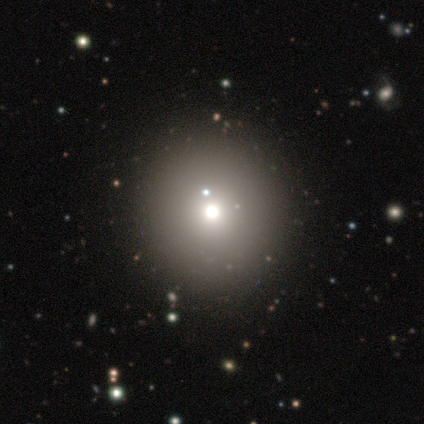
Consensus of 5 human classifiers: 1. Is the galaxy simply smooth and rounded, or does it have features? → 80% smooth, 20% star or artifact, 0% featured or disk.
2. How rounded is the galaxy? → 100% round, 0% in between, 0% cigar-shaped.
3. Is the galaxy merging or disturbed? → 100% none, 0% minor disturbance, 0% major disturbance, 0% merger.